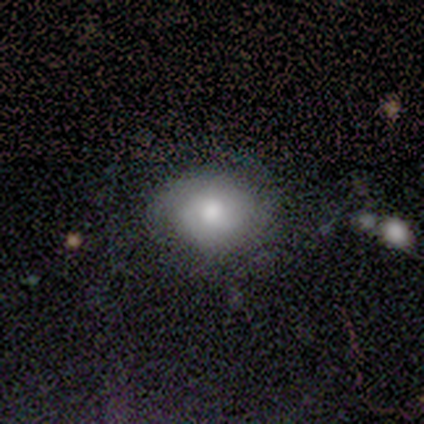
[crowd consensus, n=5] Overall: smooth (80%). How rounded: in between (75%). Merging: none (60%; minor disturbance 40%).